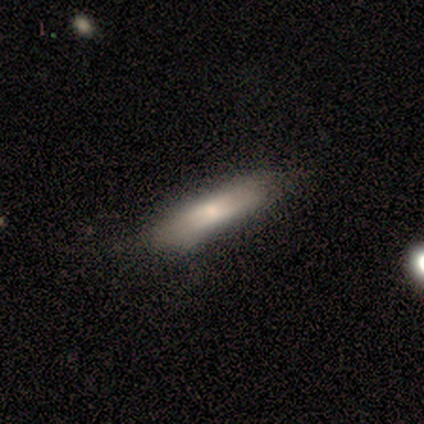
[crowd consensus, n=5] smooth 100%, featured or disk 0%, star or artifact 0%. Down the decision tree: how rounded — cigar-shaped (60%); merging — none (100%).